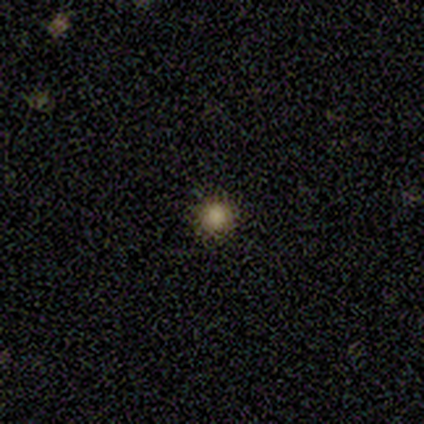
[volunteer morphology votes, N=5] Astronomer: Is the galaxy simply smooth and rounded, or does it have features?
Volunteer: smooth — 60% (runner-up: star or artifact, 40%).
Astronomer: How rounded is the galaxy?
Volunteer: round — 100%.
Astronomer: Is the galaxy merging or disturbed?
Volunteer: none — 100%.